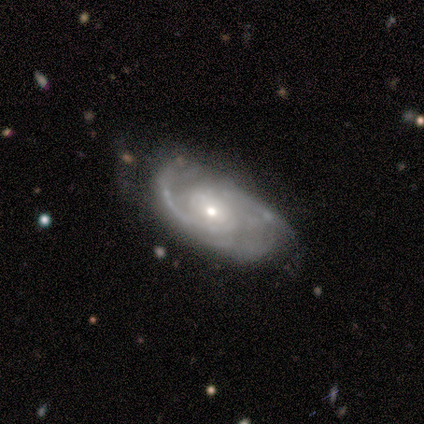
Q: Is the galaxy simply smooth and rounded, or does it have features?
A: featured or disk — 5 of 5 (100%).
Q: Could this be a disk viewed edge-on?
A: no — 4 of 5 (80%).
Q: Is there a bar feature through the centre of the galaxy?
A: weak — 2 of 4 (50%, tied with no).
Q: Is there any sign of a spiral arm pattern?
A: yes — 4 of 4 (100%).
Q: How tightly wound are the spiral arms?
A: medium — 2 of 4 (50%).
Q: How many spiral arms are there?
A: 2 — 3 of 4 (75%).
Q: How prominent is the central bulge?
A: small — 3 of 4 (75%).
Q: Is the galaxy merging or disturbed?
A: none — 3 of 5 (60%).